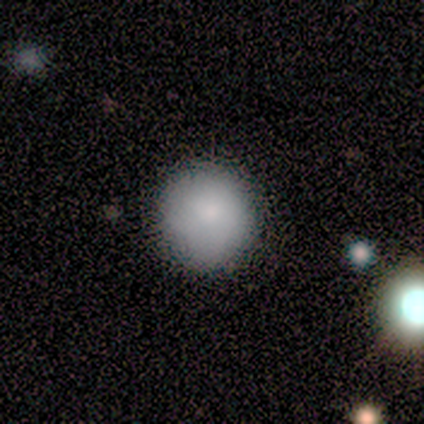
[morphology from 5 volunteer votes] Volunteers were most divided on "merging": none: 75%, minor disturbance: 25%, major disturbance: 0%, merger: 0%. More confident: how rounded — round (100%); smooth or featured — smooth (80%).